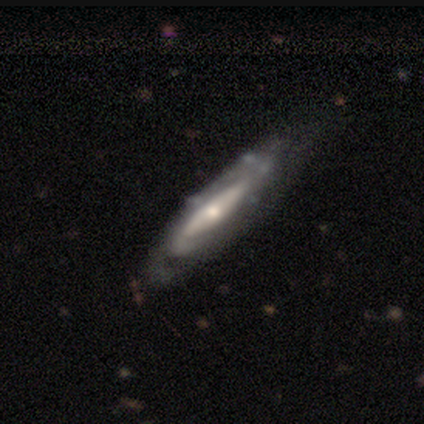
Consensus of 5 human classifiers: Smooth or featured?
  - featured or disk: 100% *
  - smooth: 0%
  - star or artifact: 0%
Edge-on disk?
  - no: 60% *
  - yes: 40%
Bar?
  - strong: 33% * (tied)
  - weak: 33% * (tied)
  - no: 33% * (tied)
Spiral arms?
  - yes: 67% *
  - no: 33%
Spiral winding?
  - tight: 50% * (tied)
  - medium: 50% * (tied)
  - loose: 0%
Spiral arm count?
  - 1: 100% *
  - 2: 0%
  - 3: 0%
  - 4: 0%
  - more than 4: 0%
  - can't tell: 0%
Bulge size?
  - moderate: 33% * (tied)
  - small: 33% * (tied)
  - none: 33% * (tied)
  - dominant: 0%
  - large: 0%
Merging?
  - none: 40% * (tied)
  - minor disturbance: 40% * (tied)
  - major disturbance: 20%
  - merger: 0%